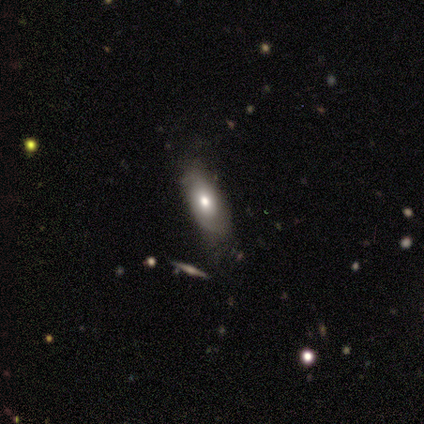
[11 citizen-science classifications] Smooth or featured? 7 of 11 (64%) said featured or disk. Edge-on disk? 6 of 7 (86%) said no. Bar? 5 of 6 (83%) said no. Spiral arms? 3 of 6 (50%, tied with no) said yes. Spiral winding? 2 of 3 (67%) said tight. Spiral arm count? 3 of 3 (100%) said 2. Bulge size? 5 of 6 (83%) said moderate. Merging? 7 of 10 (70%) said none.